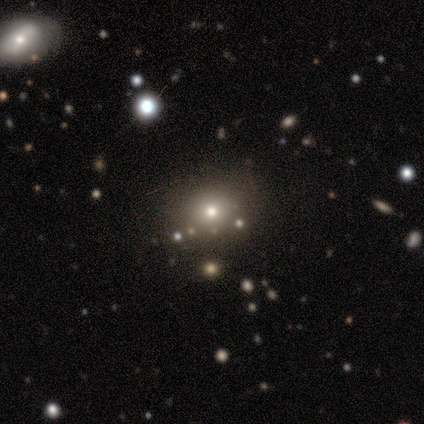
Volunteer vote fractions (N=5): This appears to be a star or artifact, not a galaxy (80%).